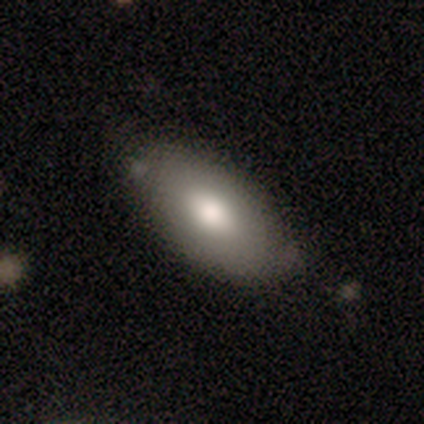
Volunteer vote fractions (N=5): smooth 60%, featured or disk 20%, star or artifact 20%. Down the decision tree: how rounded — in between (100%); merging — none (50%).